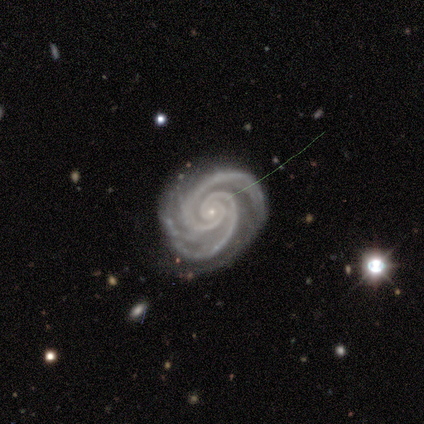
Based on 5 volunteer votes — Q: Smooth or featured?
A: featured or disk (100%)
Q: Edge-on disk?
A: no (100%)
Q: Bar?
A: no (80%); runner-up: strong (20%)
Q: Spiral arms?
A: yes (100%)
Q: Spiral winding?
A: tight (80%); runner-up: medium (20%)
Q: Spiral arm count?
A: 2 (100%)
Q: Bulge size?
A: small (80%); runner-up: none (20%)
Q: Merging?
A: none (80%); runner-up: minor disturbance (20%)